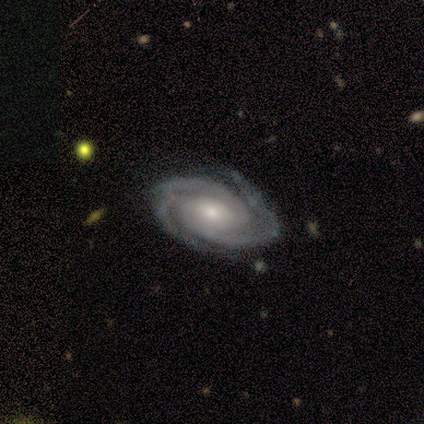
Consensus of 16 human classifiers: Smooth or featured? featured or disk (88%)
Edge-on disk? no (100%)
Bar? no (79%)
Spiral arms? yes (100%)
Spiral winding? tight (79%)
Spiral arm count? 2 (50%)
Bulge size? moderate (79%)
Merging? none (81%)